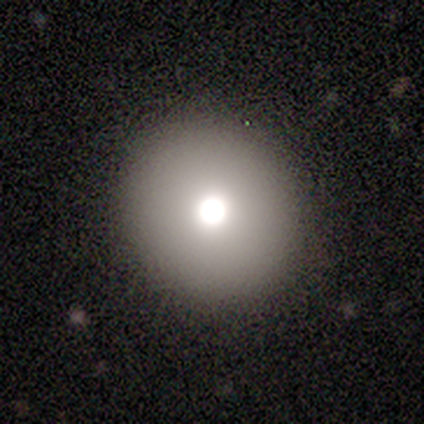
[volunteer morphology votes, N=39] smooth 67%, star or artifact 21%, featured or disk 13%. Down the decision tree: how rounded — round (96%); merging — none (90%).